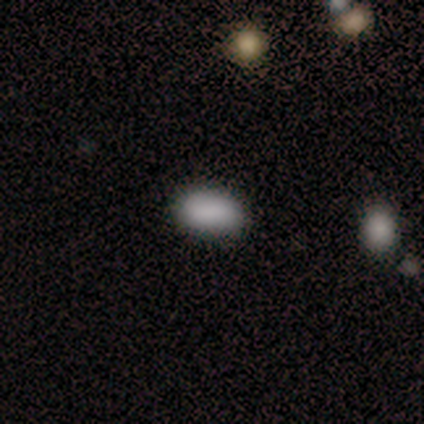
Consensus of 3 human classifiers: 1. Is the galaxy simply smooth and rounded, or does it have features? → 100% smooth, 0% featured or disk, 0% star or artifact.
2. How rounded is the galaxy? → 100% in between, 0% round, 0% cigar-shaped.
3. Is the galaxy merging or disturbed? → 100% none, 0% minor disturbance, 0% major disturbance, 0% merger.